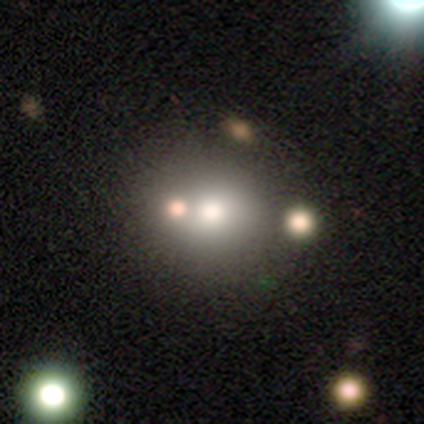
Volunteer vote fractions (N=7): Morphology: type=smooth (71%); roundness=round (80%); merging=none (80%).